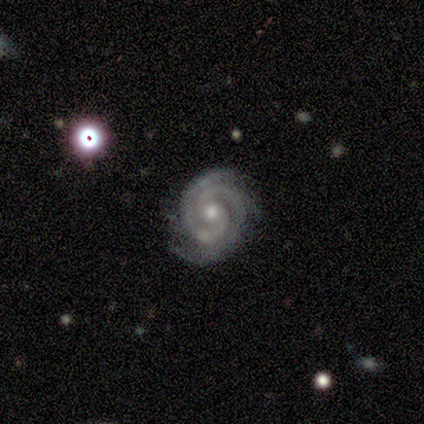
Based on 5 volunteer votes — Smooth or featured?
  - featured or disk: 80% *
  - star or artifact: 20%
  - smooth: 0%
Edge-on disk?
  - no: 100% *
  - yes: 0%
Bar?
  - no: 75% *
  - weak: 25%
  - strong: 0%
Spiral arms?
  - yes: 100% *
  - no: 0%
Spiral winding?
  - tight: 100% *
  - medium: 0%
  - loose: 0%
Spiral arm count?
  - 2: 75% *
  - 3: 25%
  - 1: 0%
  - 4: 0%
  - more than 4: 0%
  - can't tell: 0%
Bulge size?
  - moderate: 75% *
  - small: 25%
  - dominant: 0%
  - large: 0%
  - none: 0%
Merging?
  - none: 50% * (tied)
  - minor disturbance: 50% * (tied)
  - major disturbance: 0%
  - merger: 0%